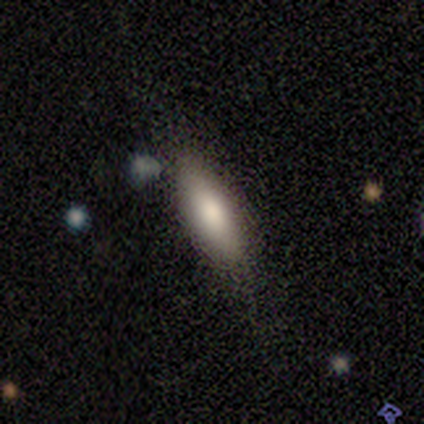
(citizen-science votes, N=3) A smooth galaxy with no disk features (100%) that is in between round and cigar-shaped (67%).

Vote fractions:
- Smooth or featured? smooth: 100% / featured or disk: 0% / star or artifact: 0%
- How rounded? in between: 67% / cigar-shaped: 33% / round: 0%
- Merging? none: 67% / minor disturbance: 33% / major disturbance: 0% / merger: 0%